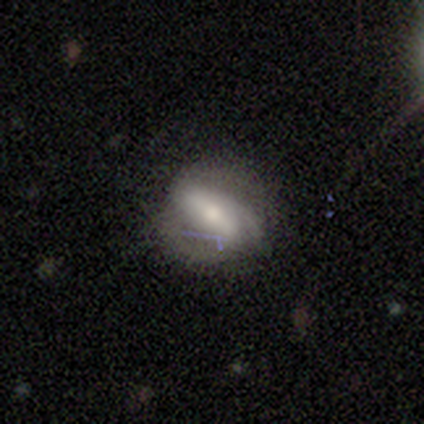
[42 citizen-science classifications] Smooth or featured: featured or disk — 50% (smooth — 33%)
Edge-on disk: no — 90% (yes — 10%)
Bar: strong — 74% (weak — 21%)
Spiral arms: yes — 79% (no — 21%)
Spiral winding: medium — 60% (tight — 20%)
Spiral arm count: 2 — 60% (3 — 27%)
Bulge size: moderate — 53% (small — 32%)
Merging: none — 57% (minor disturbance — 26%)